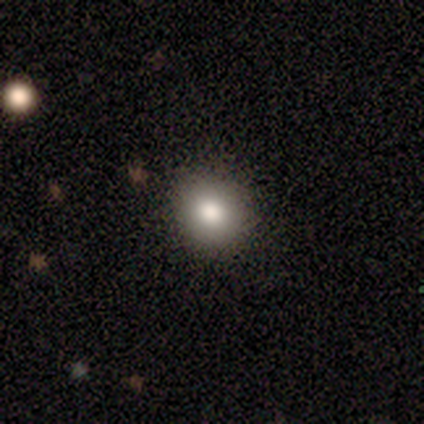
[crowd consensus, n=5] Smooth or featured: smooth — 100%
How rounded: round — 80% (in between — 20%)
Merging: none — 100%